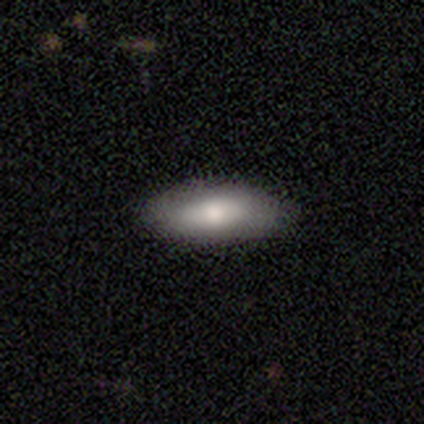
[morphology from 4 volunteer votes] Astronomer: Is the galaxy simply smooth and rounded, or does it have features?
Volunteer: featured or disk — 50%.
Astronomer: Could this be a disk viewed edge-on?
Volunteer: no — 100%.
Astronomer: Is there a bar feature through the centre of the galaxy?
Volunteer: weak — 50%, tied with no at 50%.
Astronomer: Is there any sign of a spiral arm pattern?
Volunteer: yes — 50%, tied with no at 50%.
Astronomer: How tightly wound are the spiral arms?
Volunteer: tight — 100%.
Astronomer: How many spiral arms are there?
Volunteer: can't tell — 100%.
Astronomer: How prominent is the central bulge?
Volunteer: large — 50%, tied with moderate at 50%.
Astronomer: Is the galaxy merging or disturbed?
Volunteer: none — 100%.